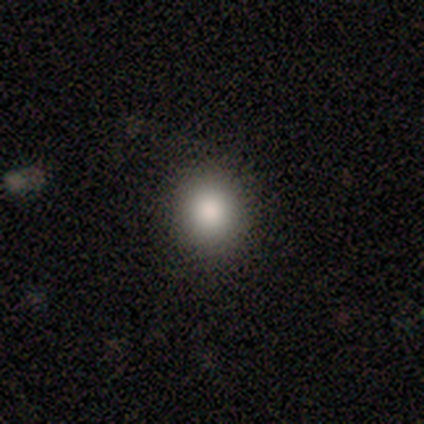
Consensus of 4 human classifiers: Smooth or featured? 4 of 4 (100%) said smooth. How rounded? 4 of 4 (100%) said round. Merging? 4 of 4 (100%) said none.